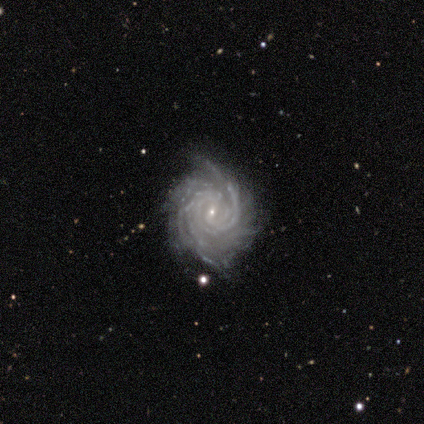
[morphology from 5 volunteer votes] A featured or disk galaxy (100%) with a weak bar (40%, tied with no), 2 (40%) tight (80%) spiral arms (100%) and a small central bulge (100%). Merging: none (100%).